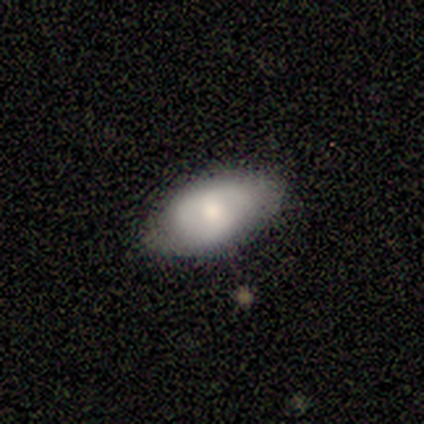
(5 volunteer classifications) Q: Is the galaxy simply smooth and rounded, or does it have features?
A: smooth — 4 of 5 (80%).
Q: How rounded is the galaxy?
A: in between — 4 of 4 (100%).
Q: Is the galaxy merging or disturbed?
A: minor disturbance — 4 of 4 (100%).